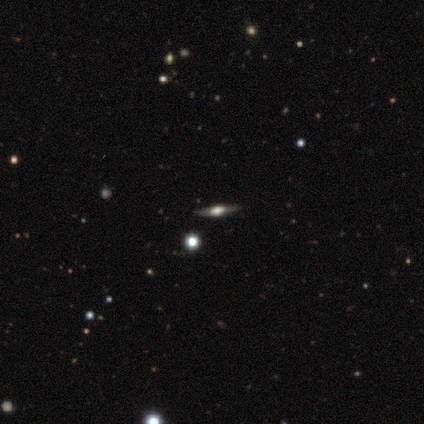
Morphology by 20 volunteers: type=featured or disk (50%); edge-on=yes (100%); edge-on bulge=rounded (90%); merging=none (88%).